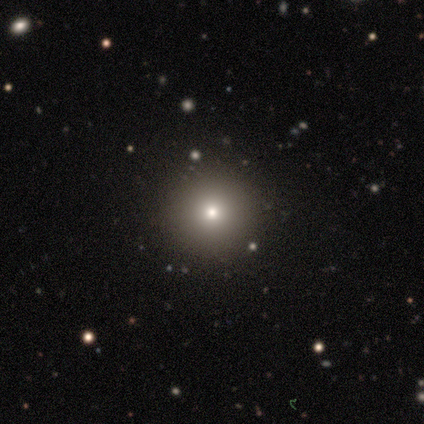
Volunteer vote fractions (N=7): Morphology: type=smooth (71%); roundness=round (100%); merging=none (100%).